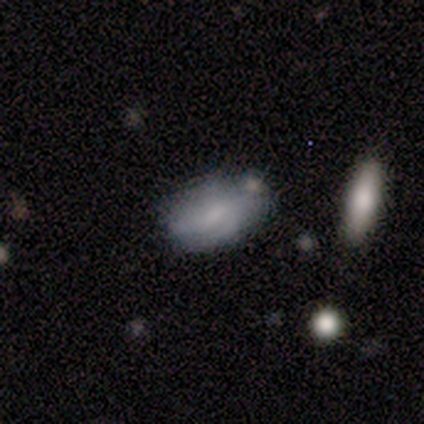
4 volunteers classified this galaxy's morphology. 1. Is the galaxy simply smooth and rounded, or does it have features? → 100% smooth, 0% featured or disk, 0% star or artifact.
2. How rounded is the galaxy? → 75% in between, 25% round, 0% cigar-shaped.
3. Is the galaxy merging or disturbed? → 50% none (tied), 50% minor disturbance (tied), 0% major disturbance, 0% merger.